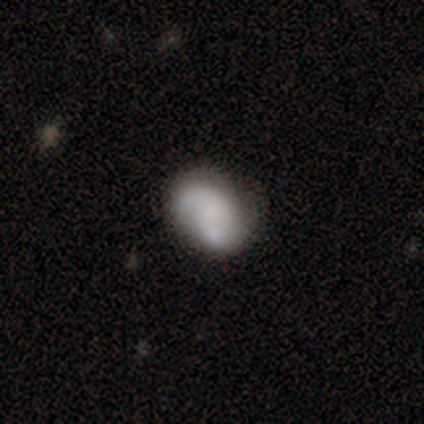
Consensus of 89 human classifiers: This is possibly a smooth galaxy (60%). How rounded: likely in between (77%). Merging: marginally none (40%).